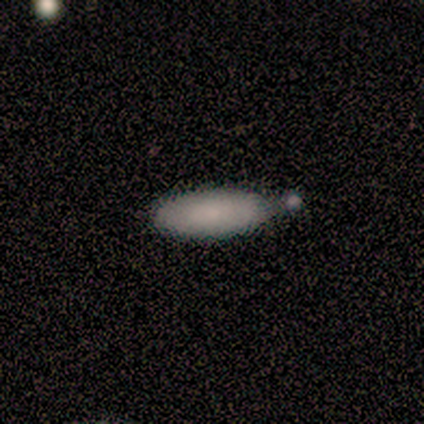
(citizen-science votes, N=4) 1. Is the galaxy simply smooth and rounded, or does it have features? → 75% smooth, 25% featured or disk, 0% star or artifact.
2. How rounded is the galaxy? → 100% in between, 0% round, 0% cigar-shaped.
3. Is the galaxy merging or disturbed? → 50% none (tied), 50% merger (tied), 0% minor disturbance, 0% major disturbance.